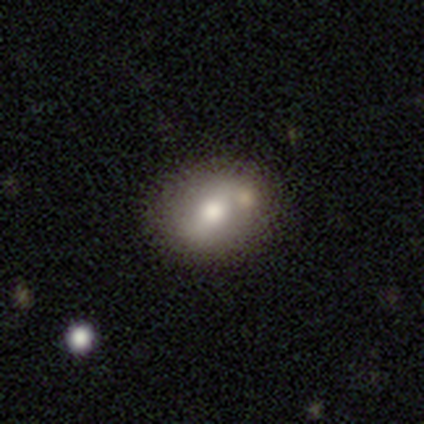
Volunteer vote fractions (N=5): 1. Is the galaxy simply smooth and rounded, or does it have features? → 80% smooth, 20% featured or disk, 0% star or artifact.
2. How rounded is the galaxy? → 100% in between, 0% round, 0% cigar-shaped.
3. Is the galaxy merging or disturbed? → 80% none, 20% merger, 0% minor disturbance, 0% major disturbance.